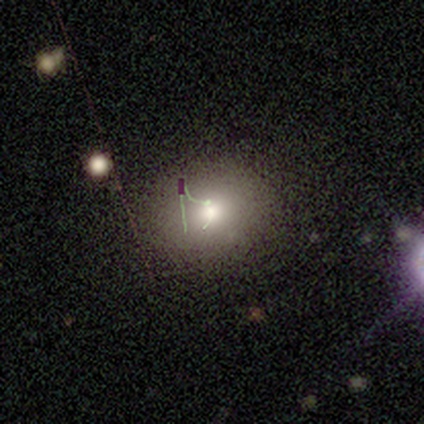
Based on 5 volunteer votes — Smooth or featured? smooth (80%)
How rounded? round (75%)
Merging? none (100%)